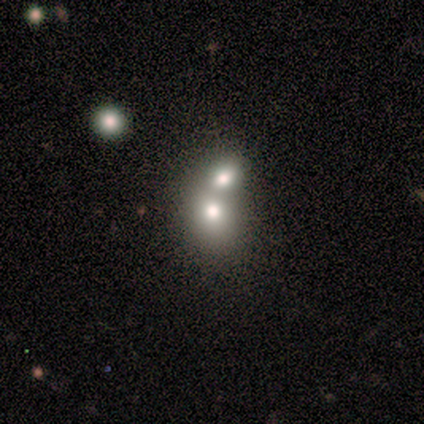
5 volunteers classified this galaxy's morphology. Smooth or featured: smooth — 60% (featured or disk — 20%)
How rounded: round — 67% (in between — 33%)
Merging: merger — 100%